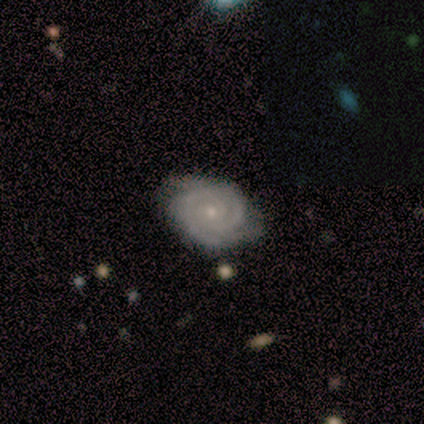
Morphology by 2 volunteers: Volunteers were most divided on "bar" (2-way tie): weak: 50%, no: 50%, strong: 0%; "spiral winding" (2-way tie): tight: 50%, medium: 50%, loose: 0%; "spiral arm count" (2-way tie): 4: 50%, can't tell: 50%, 1: 0%, 2: 0%, 3: 0%, more than 4: 0%; "bulge size" (2-way tie): moderate: 50%, small: 50%, dominant: 0%, large: 0%, none: 0%. More confident: smooth or featured — featured or disk (100%); edge-on disk — no (100%); spiral arms — yes (100%); merging — none (100%).